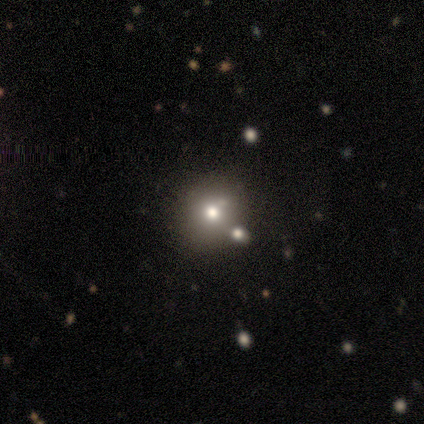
smooth_or_featured: smooth (p=0.50) [alt: featured or disk p=0.25]
how_rounded: round (p=0.50) [tied with: in between p=0.50]
merging: none (p=0.67) [alt: major disturbance p=0.33]